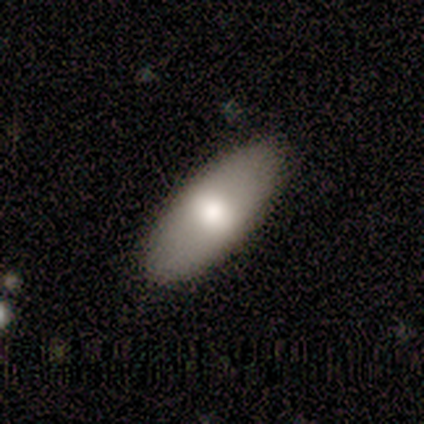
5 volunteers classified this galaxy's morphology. Smooth or featured?
  - smooth: 80% *
  - star or artifact: 20%
  - featured or disk: 0%
How rounded?
  - in between: 75% *
  - round: 25%
  - cigar-shaped: 0%
Merging?
  - none: 100% *
  - minor disturbance: 0%
  - major disturbance: 0%
  - merger: 0%